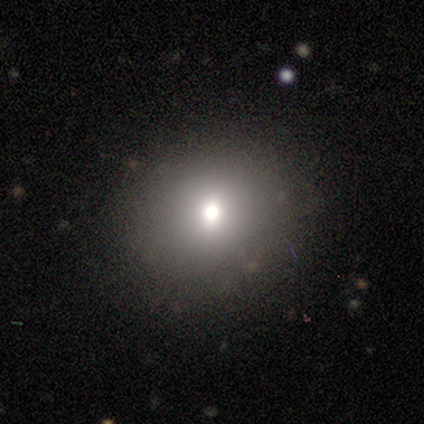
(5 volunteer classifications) Smooth or featured?
  - smooth: 80% *
  - featured or disk: 20%
  - star or artifact: 0%
How rounded?
  - round: 75% *
  - in between: 25%
  - cigar-shaped: 0%
Merging?
  - none: 80% *
  - minor disturbance: 20%
  - major disturbance: 0%
  - merger: 0%